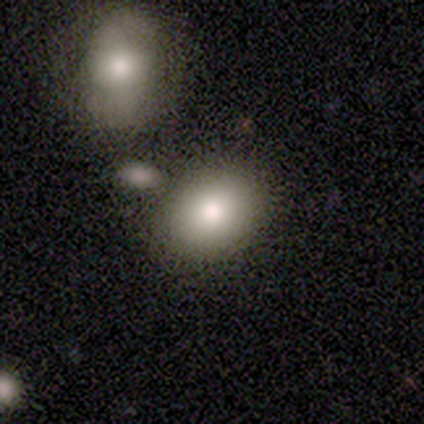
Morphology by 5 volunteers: Smooth or featured? 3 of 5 (60%) said smooth. How rounded? 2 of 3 (67%) said in between. Merging? 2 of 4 (50%) said none.